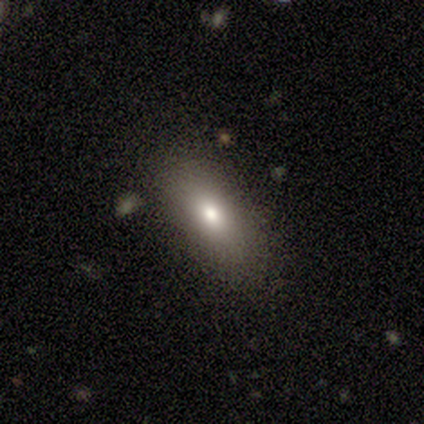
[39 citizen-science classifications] Volunteers were most divided on "smooth or featured": smooth: 67%, featured or disk: 18%, star or artifact: 15%. More confident: merging — none (79%); how rounded — in between (77%).